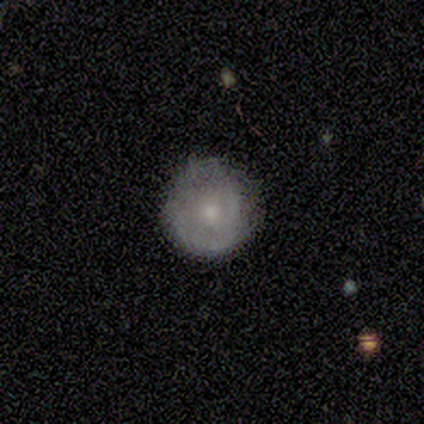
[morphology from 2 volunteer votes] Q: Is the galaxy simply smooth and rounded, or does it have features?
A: smooth — 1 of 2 (50%, tied with featured or disk).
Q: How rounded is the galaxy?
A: round — 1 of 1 (100%).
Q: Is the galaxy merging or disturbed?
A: none — 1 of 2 (50%, tied with minor disturbance).